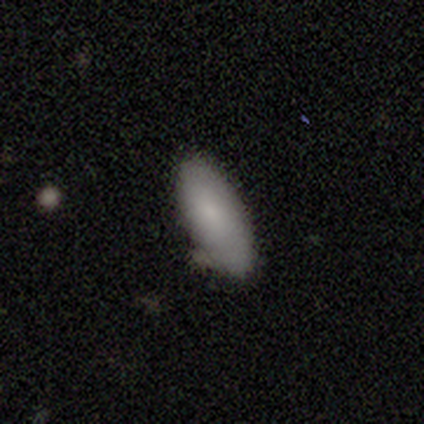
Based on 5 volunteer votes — smooth-or-featured: smooth: 100% | featured or disk: 0% | star or artifact: 0%
  how-rounded: in between: 60% | cigar-shaped: 40% | round: 0%
  merging: none: 80% | minor disturbance: 20% | major disturbance: 0% | merger: 0%